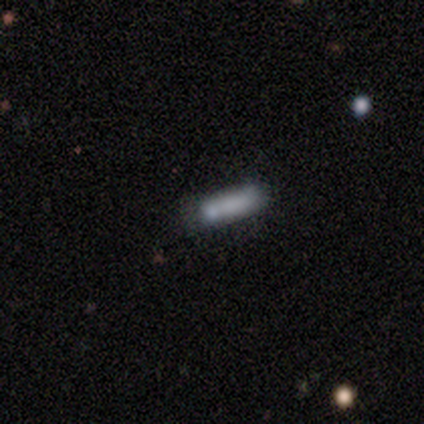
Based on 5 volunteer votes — Smooth or featured? star or artifact (60%)